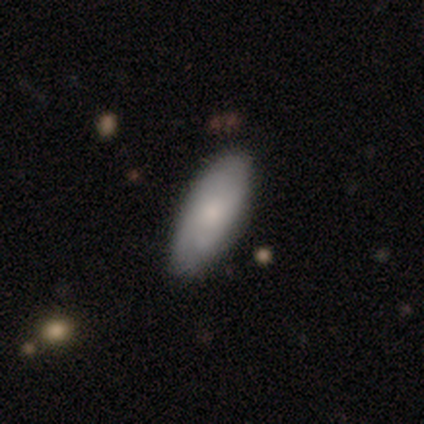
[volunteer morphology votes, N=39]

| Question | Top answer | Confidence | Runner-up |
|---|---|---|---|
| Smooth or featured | smooth | 67% | featured or disk (28%) |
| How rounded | in between | 73% | cigar-shaped (19%) |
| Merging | none | 76% | minor disturbance (22%) |